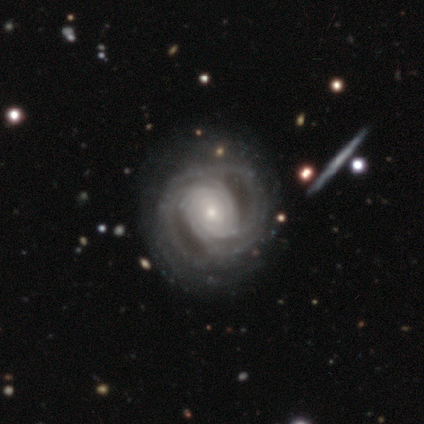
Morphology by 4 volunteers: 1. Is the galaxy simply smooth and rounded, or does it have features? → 75% featured or disk, 25% star or artifact, 0% smooth.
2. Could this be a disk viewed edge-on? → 100% no, 0% yes.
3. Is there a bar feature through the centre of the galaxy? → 67% no, 33% weak, 0% strong.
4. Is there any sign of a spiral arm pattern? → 100% yes, 0% no.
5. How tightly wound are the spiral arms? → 67% tight, 33% medium, 0% loose.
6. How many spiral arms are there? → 67% can't tell, 33% more than 4, 0% 1, 0% 2, 0% 3, 0% 4.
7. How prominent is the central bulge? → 67% small, 33% large, 0% dominant, 0% moderate, 0% none.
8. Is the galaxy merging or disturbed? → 67% none, 33% minor disturbance, 0% major disturbance, 0% merger.